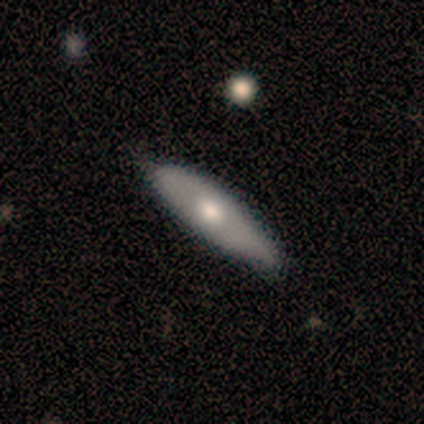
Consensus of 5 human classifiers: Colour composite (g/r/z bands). It shows a featured or disk galaxy (80%) viewed edge-on (75%) with a rounded central bulge (67%). Merging: none (100%).